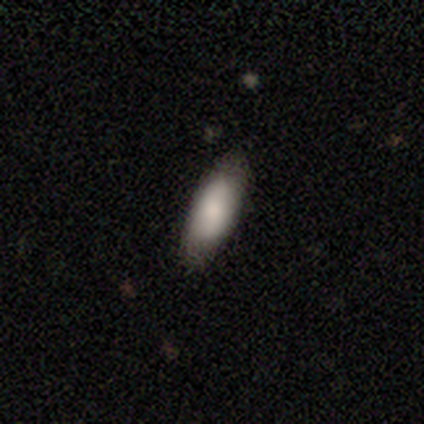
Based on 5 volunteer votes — Q: Smooth or featured?
A: smooth (80%); runner-up: star or artifact (20%)
Q: How rounded?
A: cigar-shaped (75%); runner-up: in between (25%)
Q: Merging?
A: none (100%)